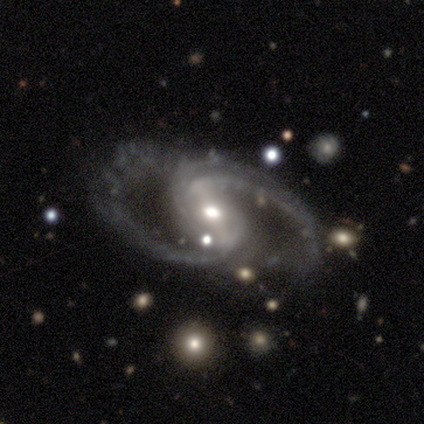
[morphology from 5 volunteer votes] This appears to be a featured or disk galaxy (100%) with a strong bar (50%), 2 (100%) loose (50%) spiral arms (100%) and a moderate central bulge (50%). Merging: none (80%).